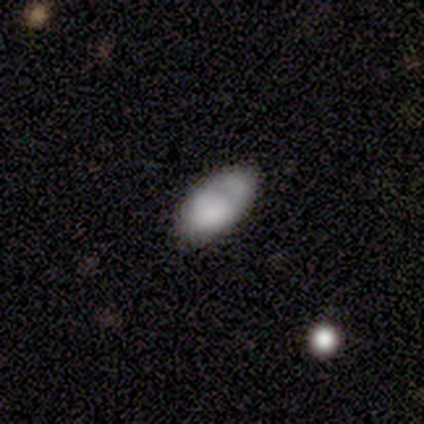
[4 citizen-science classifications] smooth_or_featured: smooth (p=1.00)
how_rounded: in between (p=1.00)
merging: none (p=0.75) [alt: major disturbance p=0.25]